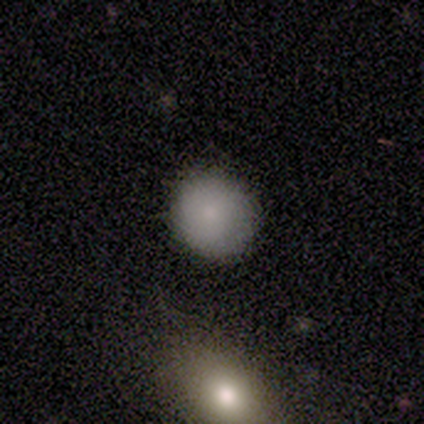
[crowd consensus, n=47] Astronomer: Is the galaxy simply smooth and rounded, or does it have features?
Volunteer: smooth — 83%.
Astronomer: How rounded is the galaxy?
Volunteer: round — 90%.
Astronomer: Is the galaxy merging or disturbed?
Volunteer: none — 78%.